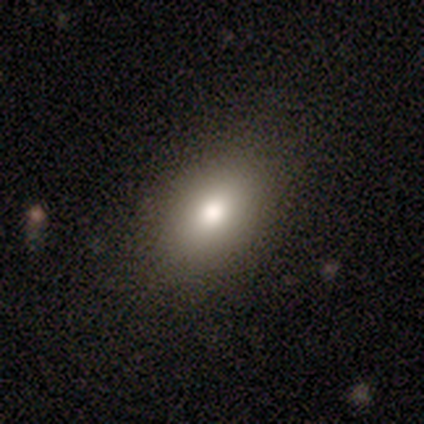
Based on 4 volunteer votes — A smooth galaxy with no disk features (50%, tied with star or artifact) that is in between round and cigar-shaped (100%).

Vote fractions:
- Smooth or featured? smooth: 50% (tied) / star or artifact: 50% (tied) / featured or disk: 0%
- How rounded? in between: 100% / round: 0% / cigar-shaped: 0%
- Merging? none: 100% / minor disturbance: 0% / major disturbance: 0% / merger: 0%